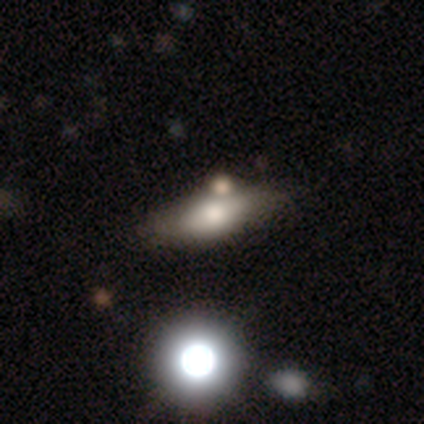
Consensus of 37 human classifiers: This is possibly a smooth galaxy (51%). How rounded: likely in between (63%). Merging: marginally none (38%).